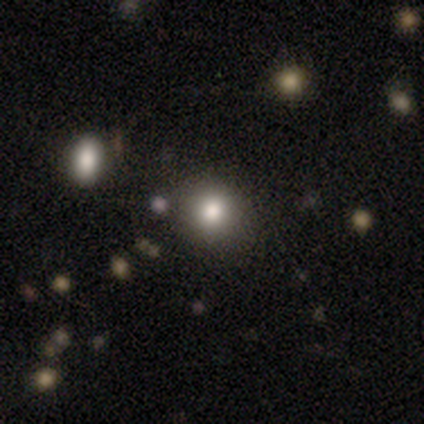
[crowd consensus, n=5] Overall: smooth (100%). How rounded: round (100%). Merging: none (60%; minor disturbance 20%).